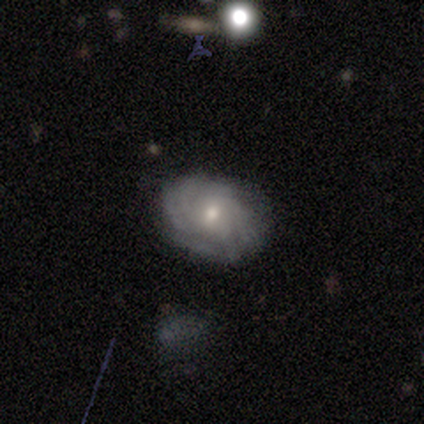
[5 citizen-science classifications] smooth-or-featured: smooth: 40% (tied) | featured or disk: 40% (tied) | star or artifact: 20%
  how-rounded: in between: 100% | round: 0% | cigar-shaped: 0%
  merging: none: 75% | minor disturbance: 25% | major disturbance: 0% | merger: 0%